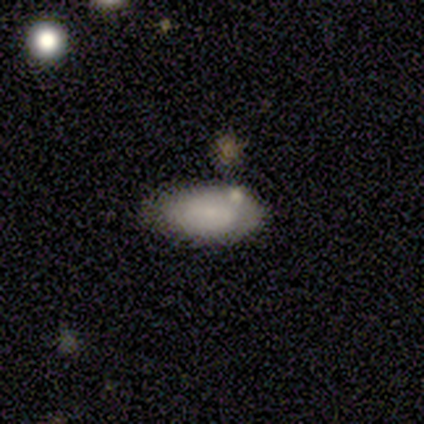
A smooth galaxy with no disk features (80%) that is in between round and cigar-shaped (100%).

Vote fractions:
- Smooth or featured? smooth: 80% / star or artifact: 20% / featured or disk: 0%
- How rounded? in between: 100% / round: 0% / cigar-shaped: 0%
- Merging? none: 62% / minor disturbance: 38% / major disturbance: 0% / merger: 0%